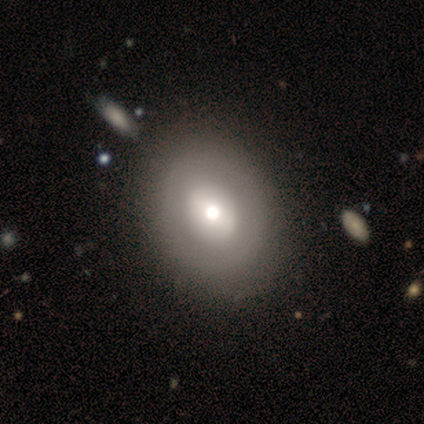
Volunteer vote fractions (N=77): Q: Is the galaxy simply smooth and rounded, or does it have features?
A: smooth — 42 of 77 (55%).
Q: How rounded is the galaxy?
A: round — 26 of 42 (62%).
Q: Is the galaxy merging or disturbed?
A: none — 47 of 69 (68%).